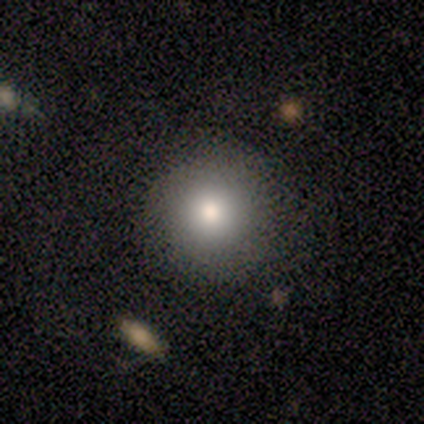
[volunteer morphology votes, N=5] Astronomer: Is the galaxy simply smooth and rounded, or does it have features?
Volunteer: smooth — 80%.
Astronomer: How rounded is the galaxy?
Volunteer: round — 100%.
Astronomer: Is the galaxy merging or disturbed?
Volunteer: none — 80%.